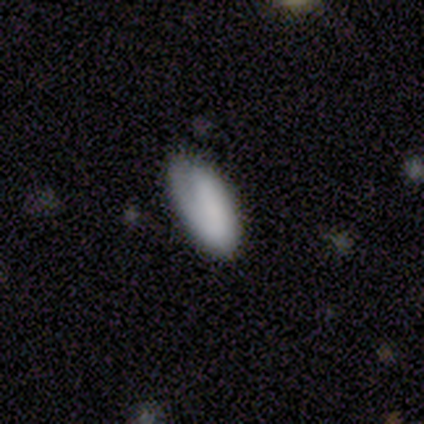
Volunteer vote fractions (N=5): Morphology: type=smooth (80%); roundness=in between (75%); merging=minor disturbance (40%).